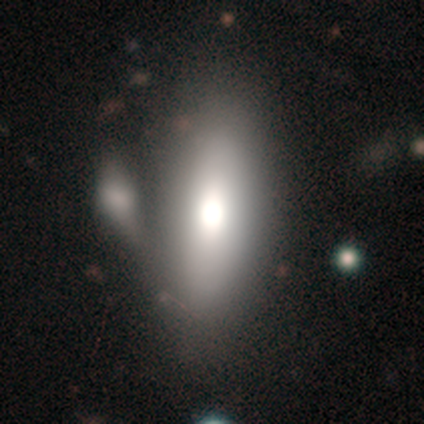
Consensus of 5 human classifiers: Morphology: type=smooth (60%); roundness=cigar-shaped (67%); merging=major disturbance (40%).